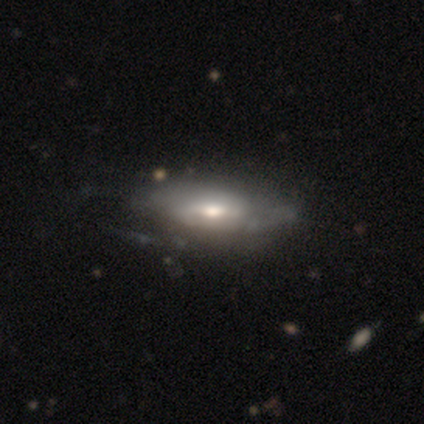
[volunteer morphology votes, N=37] A featured or disk galaxy (57%) with a weak bar (44%, tied with no), loose (40%) spiral arms (62%) and a moderate central bulge (81%). Merging: none (28%).